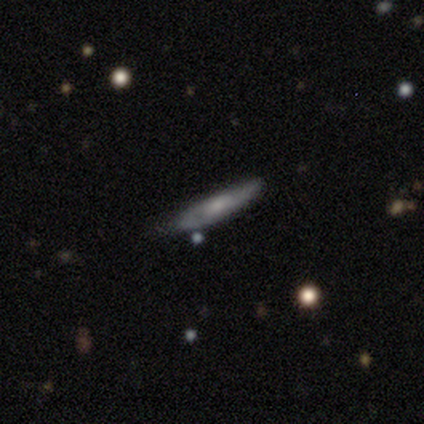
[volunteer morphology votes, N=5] Smooth or featured: smooth — 40% (tied with featured or disk — 40%)
How rounded: cigar-shaped — 100%
Merging: minor disturbance — 75% (none — 25%)